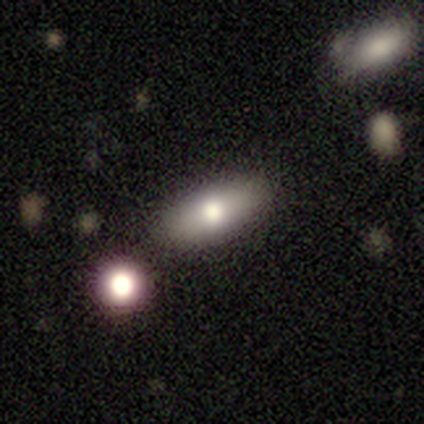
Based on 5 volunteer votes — A smooth galaxy with no disk features (100%) that is in between round and cigar-shaped (80%).

Vote fractions:
- Smooth or featured? smooth: 100% / featured or disk: 0% / star or artifact: 0%
- How rounded? in between: 80% / cigar-shaped: 20% / round: 0%
- Merging? none: 80% / minor disturbance: 20% / major disturbance: 0% / merger: 0%